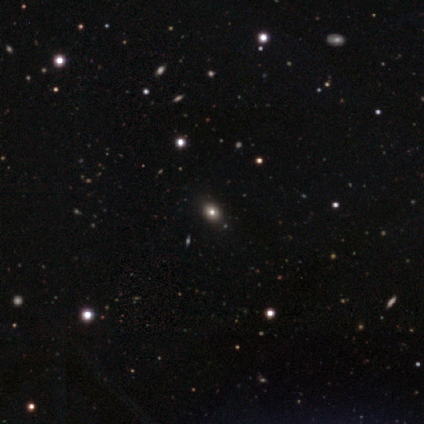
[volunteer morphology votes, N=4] Smooth or featured: star or artifact — 50% (smooth — 25%)